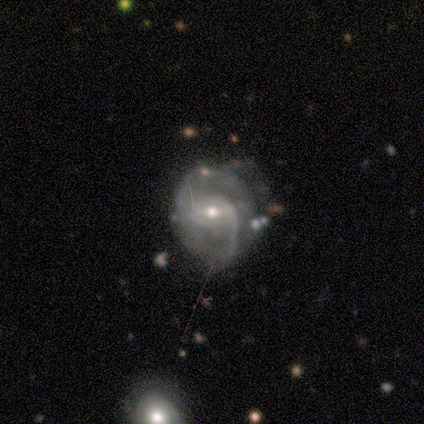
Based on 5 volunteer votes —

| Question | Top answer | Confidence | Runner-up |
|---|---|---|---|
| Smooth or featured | featured or disk | 100% | — |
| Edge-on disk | no | 100% | — |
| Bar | weak | 80% | no (20%) |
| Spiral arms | yes | 100% | — |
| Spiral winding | loose | 80% | medium (20%) |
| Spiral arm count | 2 | 80% | 1 (20%) |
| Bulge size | small | 60% | moderate (40%) |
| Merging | none | 60% | minor disturbance (20%) |